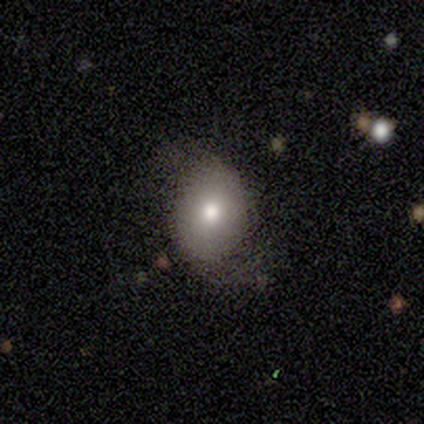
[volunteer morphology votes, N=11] Smooth or featured? 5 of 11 (45%) said smooth. How rounded? 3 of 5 (60%) said in between. Merging? 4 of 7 (57%) said none.